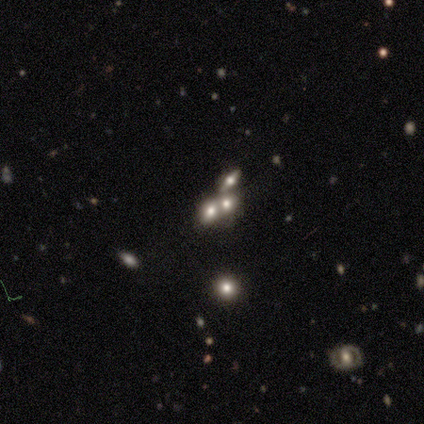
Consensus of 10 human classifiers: This is possibly a smooth galaxy (50%). How rounded: likely in between (60%). Merging: possibly none (57%).